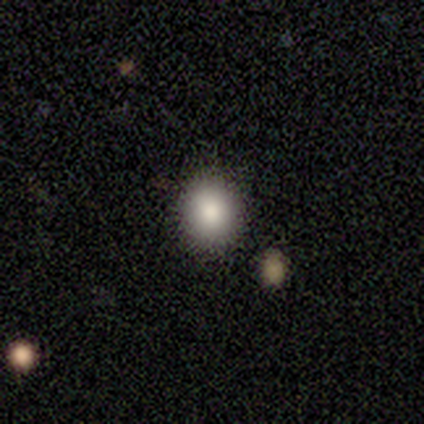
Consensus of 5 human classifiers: Q: Smooth or featured?
A: smooth (100%)
Q: How rounded?
A: round (60%); runner-up: in between (40%)
Q: Merging?
A: none (100%)